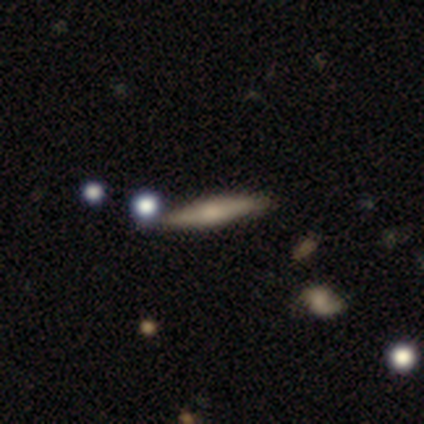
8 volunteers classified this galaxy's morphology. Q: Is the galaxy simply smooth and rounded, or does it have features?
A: featured or disk — 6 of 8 (75%).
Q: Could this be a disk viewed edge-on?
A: yes — 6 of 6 (100%).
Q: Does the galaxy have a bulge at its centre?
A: rounded — 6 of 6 (100%).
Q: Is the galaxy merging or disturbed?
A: none — 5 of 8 (62%).